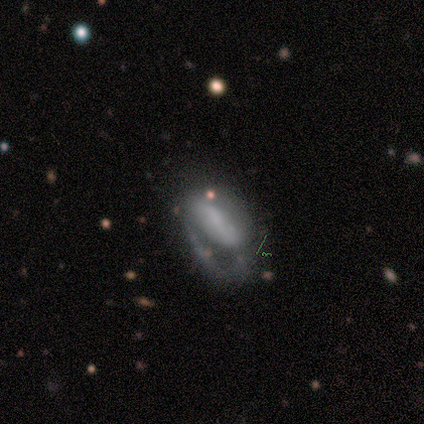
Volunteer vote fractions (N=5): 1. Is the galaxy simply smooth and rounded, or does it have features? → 60% smooth, 40% featured or disk, 0% star or artifact.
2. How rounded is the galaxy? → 100% in between, 0% round, 0% cigar-shaped.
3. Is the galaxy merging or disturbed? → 80% major disturbance, 20% minor disturbance, 0% none, 0% merger.